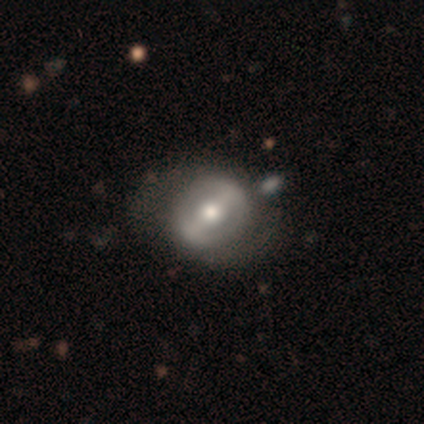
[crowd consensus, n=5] Smooth or featured? 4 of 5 (80%) said featured or disk. Edge-on disk? 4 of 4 (100%) said no. Bar? 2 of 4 (50%) said strong. Spiral arms? 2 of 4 (50%, tied with no) said yes. Spiral winding? 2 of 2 (100%) said medium. Spiral arm count? 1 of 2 (50%, tied with can't tell) said 2. Bulge size? 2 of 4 (50%) said moderate. Merging? 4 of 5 (80%) said none.